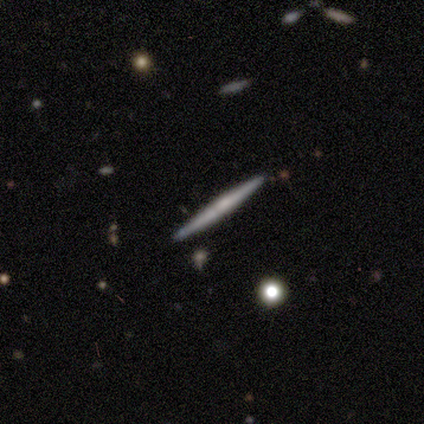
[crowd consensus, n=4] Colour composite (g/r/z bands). It shows a featured or disk galaxy (75%) viewed edge-on (67%) with no central bulge (100%). Merging: none (50%).